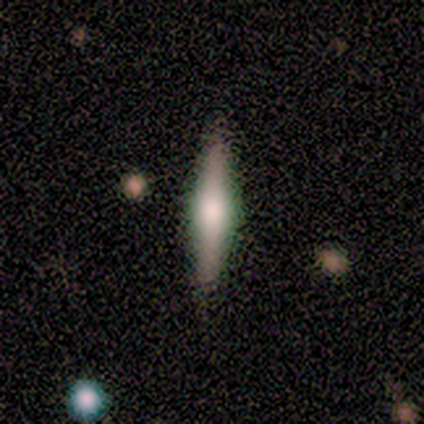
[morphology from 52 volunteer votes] Q: Smooth or featured?
A: featured or disk (63%); runner-up: smooth (33%)
Q: Edge-on disk?
A: yes (100%)
Q: Edge-on bulge?
A: rounded (82%); runner-up: boxy (12%)
Q: Merging?
A: none (90%); runner-up: minor disturbance (6%)